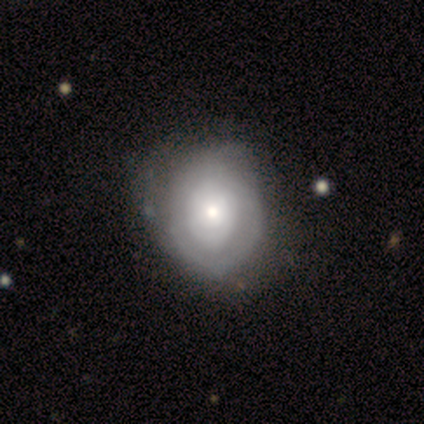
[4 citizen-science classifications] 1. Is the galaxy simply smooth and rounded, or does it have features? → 75% featured or disk, 25% smooth, 0% star or artifact.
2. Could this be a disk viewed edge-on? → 100% no, 0% yes.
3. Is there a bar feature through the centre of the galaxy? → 100% no, 0% strong, 0% weak.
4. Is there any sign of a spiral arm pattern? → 67% no, 33% yes.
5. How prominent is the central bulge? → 100% small, 0% dominant, 0% large, 0% moderate, 0% none.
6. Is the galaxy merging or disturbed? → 50% none (tied), 50% minor disturbance (tied), 0% major disturbance, 0% merger.